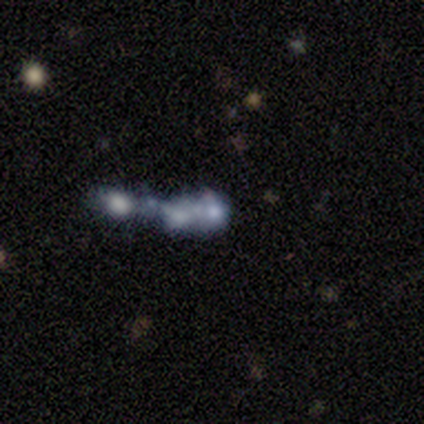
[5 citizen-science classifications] Volunteers were most divided on "merging": merger: 50%, none: 25%, major disturbance: 25%, minor disturbance: 0%. More confident: bar — no (100%); spiral arms — no (100%); bulge size — none (100%); edge-on disk — no (67%); smooth or featured — featured or disk (60%).